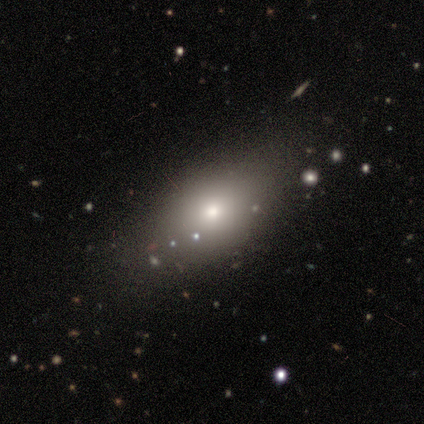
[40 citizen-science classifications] Q: Smooth or featured?
A: smooth (78%); runner-up: featured or disk (12%)
Q: How rounded?
A: in between (65%); runner-up: cigar-shaped (29%)
Q: Merging?
A: none (86%); runner-up: minor disturbance (6%)